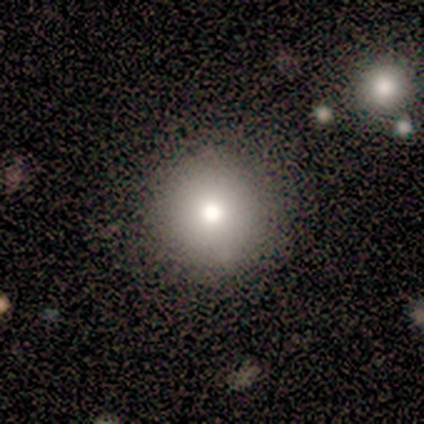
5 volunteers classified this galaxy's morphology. This is clearly a smooth galaxy (100%). How rounded: clearly round (100%). Merging: clearly none (100%).